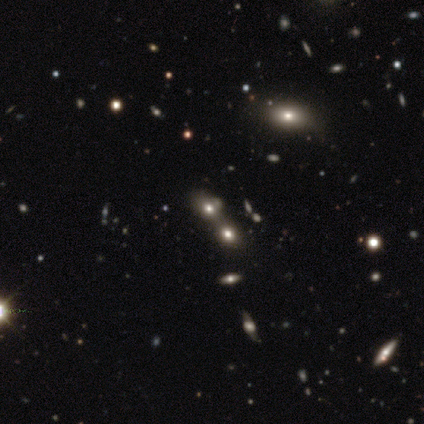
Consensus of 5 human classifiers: Smooth or featured: featured or disk — 40% (tied with star or artifact — 40%)
Edge-on disk: no — 100%
Bar: strong — 50% (tied with no — 50%)
Spiral arms: no — 100%
Bulge size: moderate — 50% (tied with none — 50%)
Merging: merger — 67% (none — 33%)